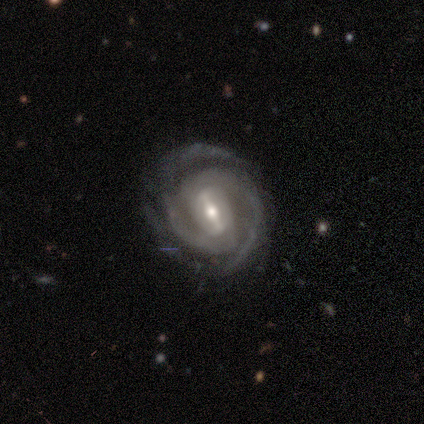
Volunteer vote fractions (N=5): smooth-or-featured: featured or disk: 100% | smooth: 0% | star or artifact: 0%
  disk-edge-on: no: 100% | yes: 0%
    bar: strong: 80% | weak: 20% | no: 0%
    has-spiral-arms: yes: 100% | no: 0%
      spiral-winding: tight: 40% (tied) | loose: 40% (tied) | medium: 20%
      spiral-arm-count: 2: 60% | 3: 40% | 1: 0% | 4: 0% | more than 4: 0% | can't tell: 0%
    bulge-size: moderate: 80% | small: 20% | dominant: 0% | large: 0% | none: 0%
  merging: none: 80% | minor disturbance: 20% | major disturbance: 0% | merger: 0%